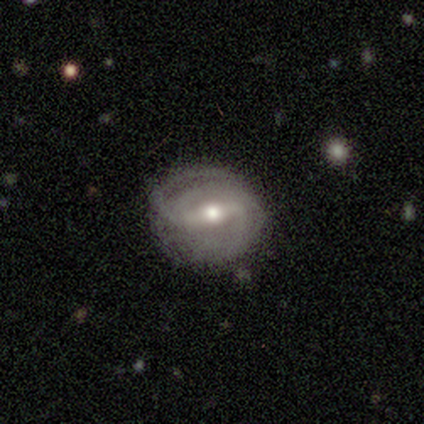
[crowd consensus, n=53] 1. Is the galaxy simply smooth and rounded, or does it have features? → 87% featured or disk, 9% smooth, 4% star or artifact.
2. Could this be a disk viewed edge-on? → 93% no, 7% yes.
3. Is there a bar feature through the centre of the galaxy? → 63% strong, 37% weak, 0% no.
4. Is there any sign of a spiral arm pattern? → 88% yes, 12% no.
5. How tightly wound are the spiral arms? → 45% tight, 37% medium, 18% loose.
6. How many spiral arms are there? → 71% 2, 13% 3, 11% can't tell, 3% 1, 3% 4, 0% more than 4.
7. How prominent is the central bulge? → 77% moderate, 23% small, 0% dominant, 0% large, 0% none.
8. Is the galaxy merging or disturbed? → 61% none, 35% minor disturbance, 4% major disturbance, 0% merger.